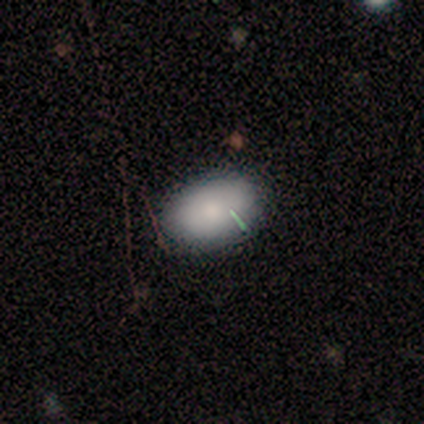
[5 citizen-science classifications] Smooth or featured?
  - smooth: 80% *
  - featured or disk: 20%
  - star or artifact: 0%
How rounded?
  - in between: 100% *
  - round: 0%
  - cigar-shaped: 0%
Merging?
  - none: 40% * (tied)
  - minor disturbance: 40% * (tied)
  - major disturbance: 20%
  - merger: 0%